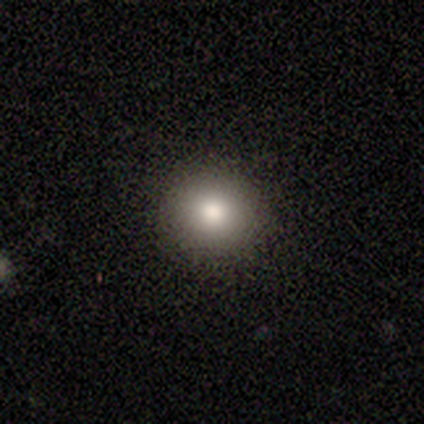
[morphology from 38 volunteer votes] Smooth or featured? smooth (89%)
How rounded? round (100%)
Merging? none (94%)